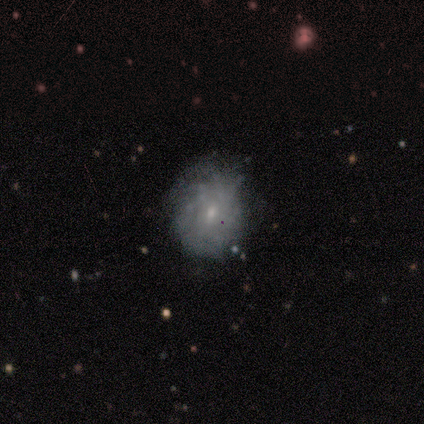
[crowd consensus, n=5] Smooth or featured: featured or disk — 60% (smooth — 20%)
Edge-on disk: no — 100%
Bar: no — 100%
Spiral arms: yes — 67% (no — 33%)
Spiral winding: tight — 100%
Spiral arm count: can't tell — 100%
Bulge size: small — 67% (moderate — 33%)
Merging: none — 100%